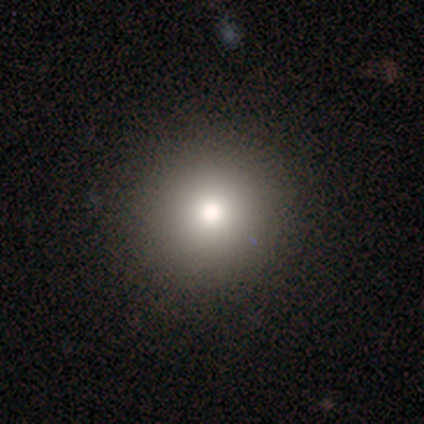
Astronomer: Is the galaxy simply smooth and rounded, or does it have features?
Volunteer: smooth — 50% (runner-up: star or artifact, 33%).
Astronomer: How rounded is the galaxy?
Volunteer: round — 100%.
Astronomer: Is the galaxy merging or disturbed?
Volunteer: none — 75%.